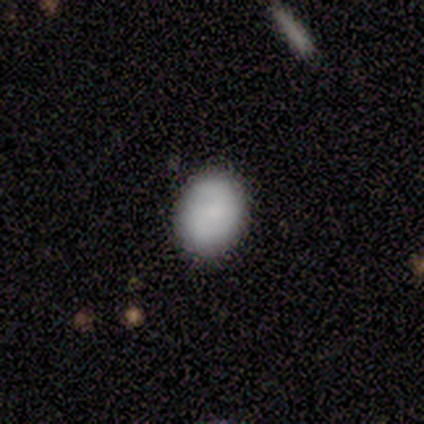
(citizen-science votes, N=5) smooth 60%, featured or disk 40%, star or artifact 0%. Down the decision tree: how rounded — round (67%); merging — none (80%).